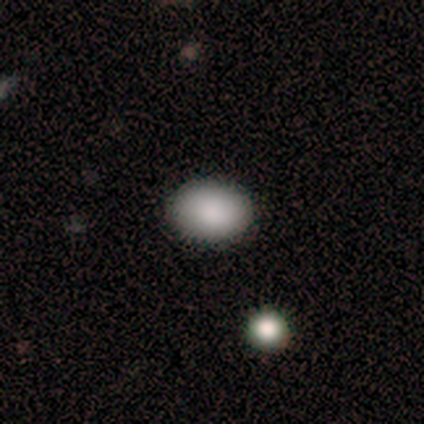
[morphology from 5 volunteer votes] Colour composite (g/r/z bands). It shows a smooth galaxy with no disk features (100%) that is in between round and cigar-shaped (100%). Merging: none (100%).